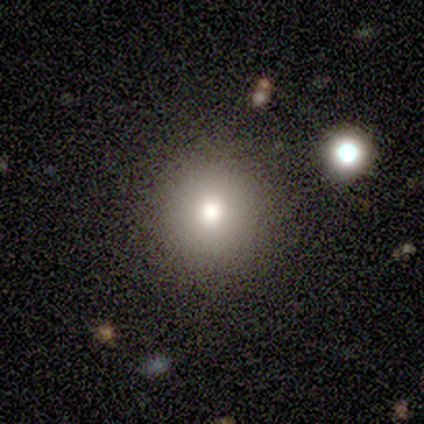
A smooth galaxy with no disk features (100%) that is round (100%).

Vote fractions:
- Smooth or featured? smooth: 100% / featured or disk: 0% / star or artifact: 0%
- How rounded? round: 100% / in between: 0% / cigar-shaped: 0%
- Merging? none: 80% / minor disturbance: 20% / major disturbance: 0% / merger: 0%